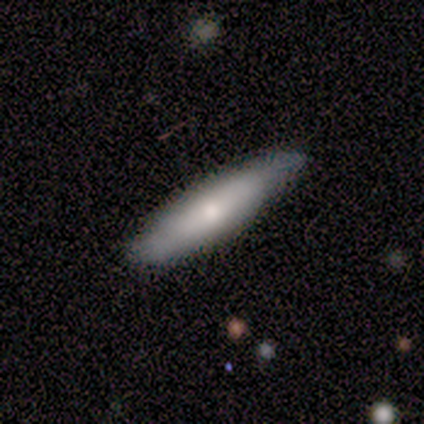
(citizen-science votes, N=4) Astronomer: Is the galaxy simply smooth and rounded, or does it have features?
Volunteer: smooth — 75%.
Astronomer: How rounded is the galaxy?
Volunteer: cigar-shaped — 100%.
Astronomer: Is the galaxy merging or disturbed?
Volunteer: none — 75%.